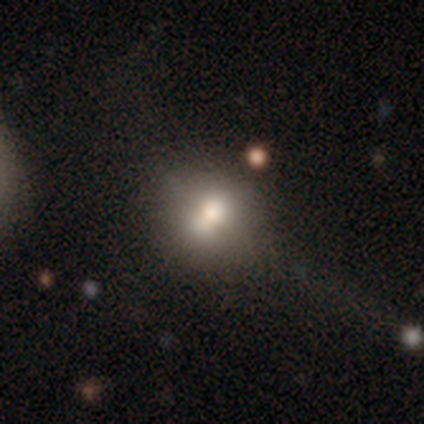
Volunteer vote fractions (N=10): smooth_or_featured: smooth (p=0.60) [alt: featured or disk p=0.30]
how_rounded: round (p=1.00)
merging: none (p=0.44) [alt: major disturbance p=0.22]